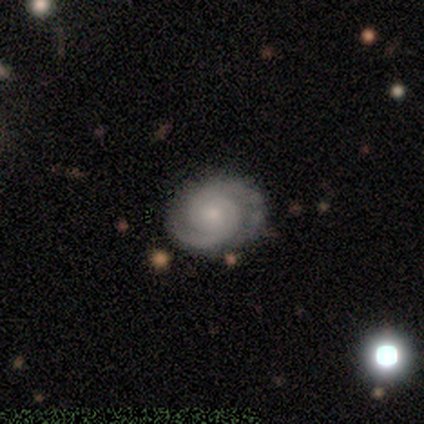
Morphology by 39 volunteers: Smooth or featured?
  - featured or disk: 90% *
  - smooth: 5%
  - star or artifact: 5%
Edge-on disk?
  - no: 100% *
  - yes: 0%
Bar?
  - no: 69% *
  - weak: 29%
  - strong: 3%
Spiral arms?
  - yes: 100% *
  - no: 0%
Spiral winding?
  - tight: 74% *
  - medium: 23%
  - loose: 3%
Spiral arm count?
  - 2: 100% *
  - 1: 0%
  - 3: 0%
  - 4: 0%
  - more than 4: 0%
  - can't tell: 0%
Bulge size?
  - small: 71% *
  - moderate: 23%
  - none: 6%
  - dominant: 0%
  - large: 0%
Merging?
  - none: 100% *
  - minor disturbance: 0%
  - major disturbance: 0%
  - merger: 0%